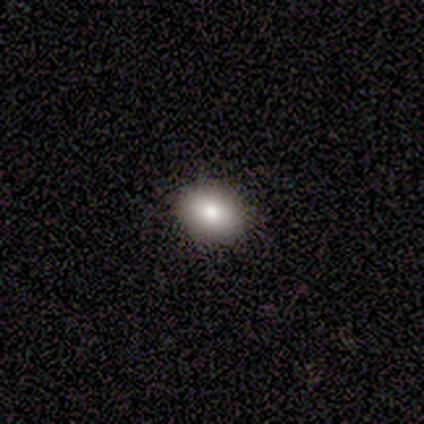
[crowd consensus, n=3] Smooth or featured? smooth (100%)
How rounded? round (67%)
Merging? none (100%)